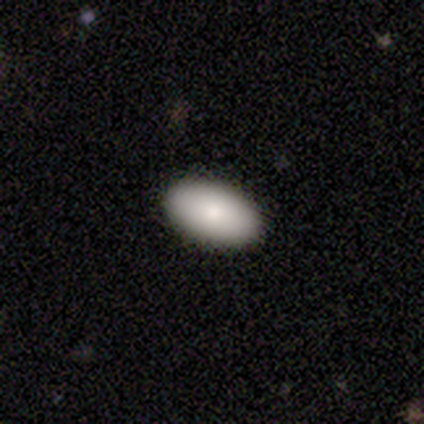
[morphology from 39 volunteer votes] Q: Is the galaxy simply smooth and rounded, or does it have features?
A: smooth — 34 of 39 (87%).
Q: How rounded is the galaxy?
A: in between — 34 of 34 (100%).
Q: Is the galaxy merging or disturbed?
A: none — 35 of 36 (97%).